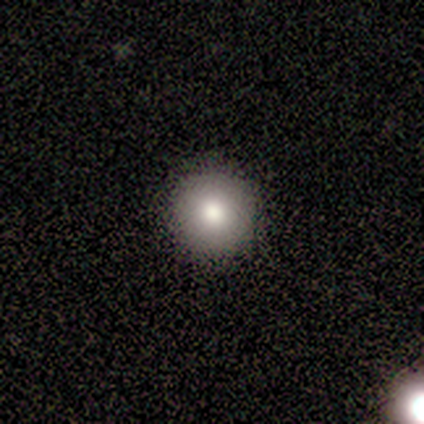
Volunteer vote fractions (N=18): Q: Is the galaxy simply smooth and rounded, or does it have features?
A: smooth — 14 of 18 (78%).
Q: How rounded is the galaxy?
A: round — 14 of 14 (100%).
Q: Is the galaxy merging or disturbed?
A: none — 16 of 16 (100%).